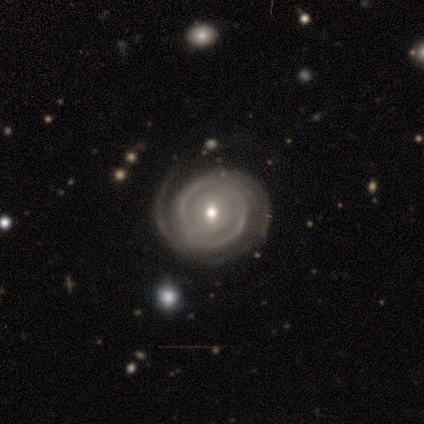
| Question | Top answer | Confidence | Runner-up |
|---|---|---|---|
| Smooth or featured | featured or disk | 89% | star or artifact (11%) |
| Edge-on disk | no | 100% | — |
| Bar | weak | 50% | no (38%) |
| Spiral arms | yes | 88% | no (12%) |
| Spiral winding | tight | 71% | medium (14%) |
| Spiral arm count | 2 | 71% | 3 (14%) |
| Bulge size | small | 75% | moderate (25%) |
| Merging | none | 100% | — |